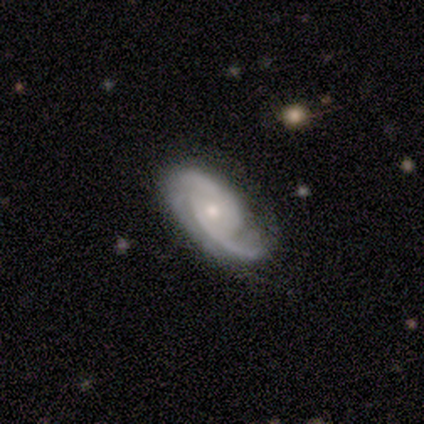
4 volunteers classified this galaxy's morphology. smooth_or_featured: featured or disk (p=0.75) [alt: smooth p=0.25]
disk_edge_on: no (p=1.00)
bar: no (p=0.67) [alt: strong p=0.33]
has_spiral_arms: yes (p=1.00)
spiral_winding: medium (p=0.67) [alt: tight p=0.33]
spiral_arm_count: 2 (p=0.67) [alt: 3 p=0.33]
bulge_size: moderate (p=0.67) [alt: small p=0.33]
merging: none (p=0.75) [alt: major disturbance p=0.25]